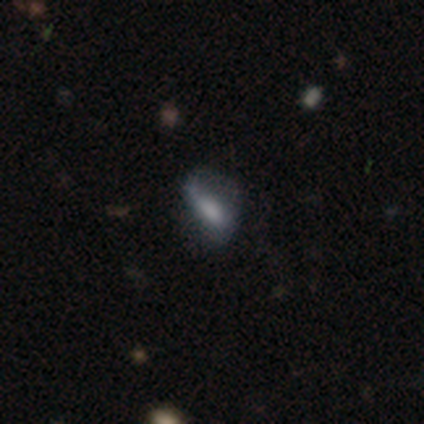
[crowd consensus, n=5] Smooth or featured? smooth (80%)
How rounded? in between (75%)
Merging? none (60%)